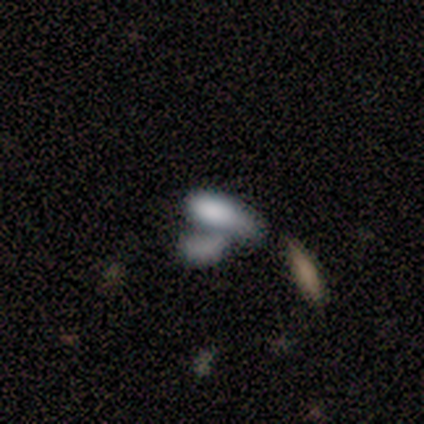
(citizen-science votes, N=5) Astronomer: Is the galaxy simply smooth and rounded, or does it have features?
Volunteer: smooth — 80%.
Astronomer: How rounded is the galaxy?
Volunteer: in between — 50%, tied with cigar-shaped at 50%.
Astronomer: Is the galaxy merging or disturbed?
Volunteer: merger — 100%.